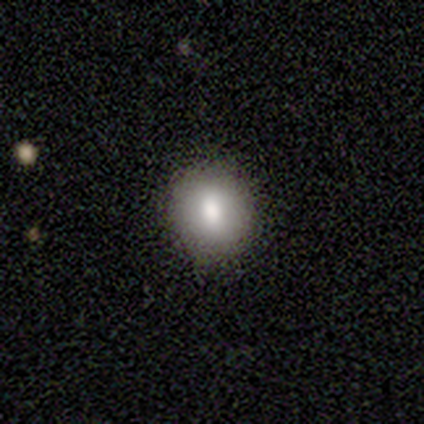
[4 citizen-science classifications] smooth 100%, featured or disk 0%, star or artifact 0%. Down the decision tree: how rounded — round (100%); merging — none (75%).